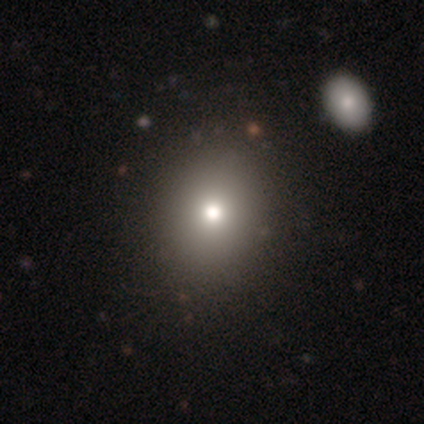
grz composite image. It shows a smooth galaxy with no disk features (75%) that is round (63%). Merging: none (56%).